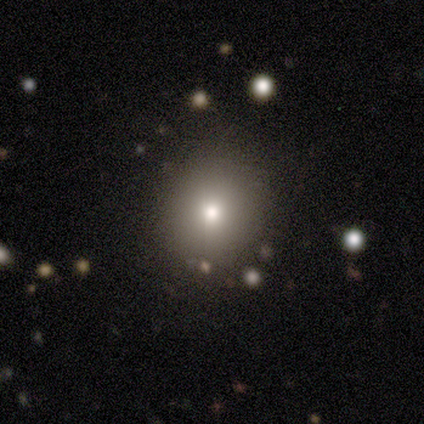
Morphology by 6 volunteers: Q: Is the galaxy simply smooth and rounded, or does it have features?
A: smooth — 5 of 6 (83%).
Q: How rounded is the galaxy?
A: round — 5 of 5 (100%).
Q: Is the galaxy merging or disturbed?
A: none — 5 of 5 (100%).